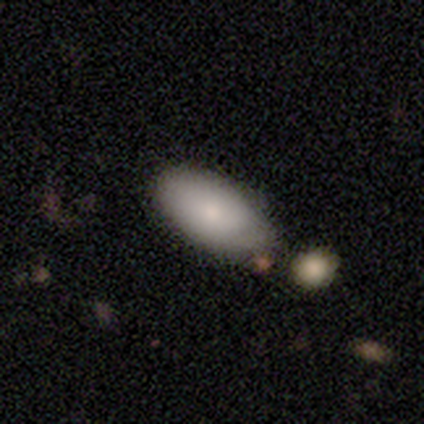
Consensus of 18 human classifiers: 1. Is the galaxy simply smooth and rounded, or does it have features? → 94% smooth, 6% featured or disk, 0% star or artifact.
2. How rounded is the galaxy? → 94% in between, 6% cigar-shaped, 0% round.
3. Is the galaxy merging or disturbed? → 67% none, 22% minor disturbance, 11% merger, 0% major disturbance.